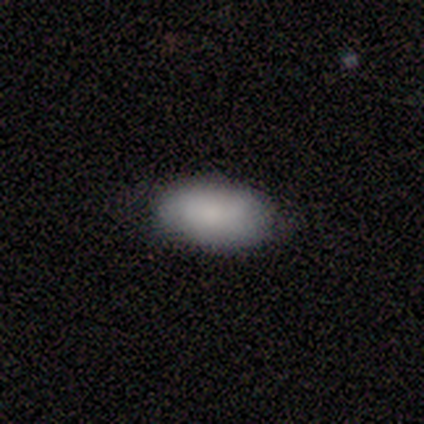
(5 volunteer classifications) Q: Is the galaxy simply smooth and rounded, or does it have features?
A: smooth — 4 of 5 (80%).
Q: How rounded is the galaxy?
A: in between — 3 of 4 (75%).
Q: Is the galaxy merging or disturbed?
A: none — 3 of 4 (75%).